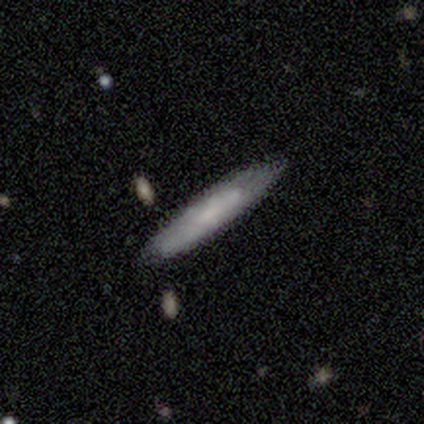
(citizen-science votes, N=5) smooth-or-featured: smooth: 80% | featured or disk: 20% | star or artifact: 0%
  how-rounded: cigar-shaped: 100% | round: 0% | in between: 0%
  merging: none: 60% | minor disturbance: 40% | major disturbance: 0% | merger: 0%